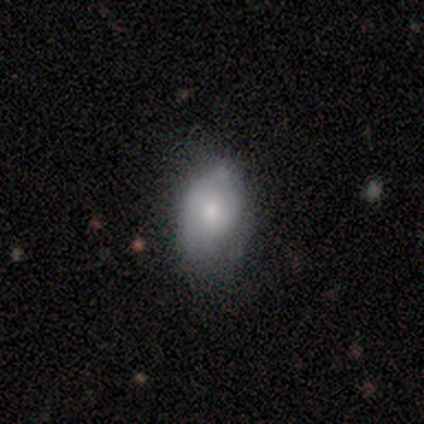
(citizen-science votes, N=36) Smooth or featured? 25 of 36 (69%) said smooth. How rounded? 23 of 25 (92%) said in between. Merging? 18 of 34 (53%) said none.